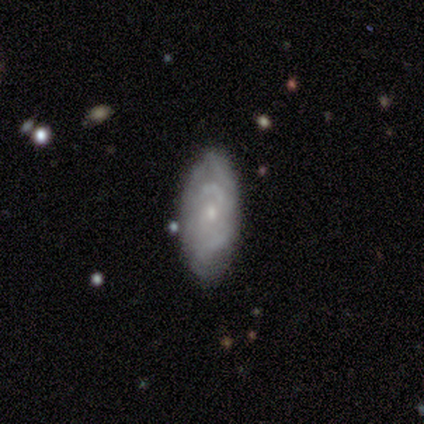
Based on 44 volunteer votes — Morphology: type=featured or disk (75%); edge-on=no (97%); bar=no (84%); spiral arms=yes (59%); winding=tight (63%); arm count=can't tell (58%); bulge=small (72%); merging=none (86%).